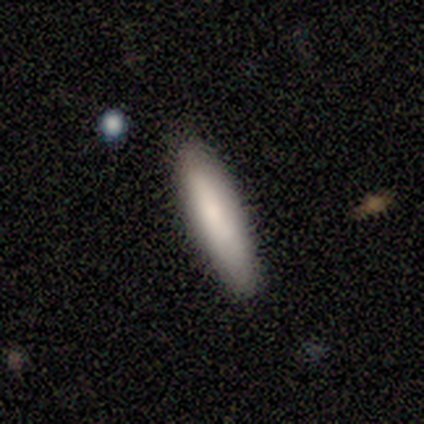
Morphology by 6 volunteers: A smooth galaxy with no disk features (100%) that is cigar-shaped (67%). Merging: none (100%).